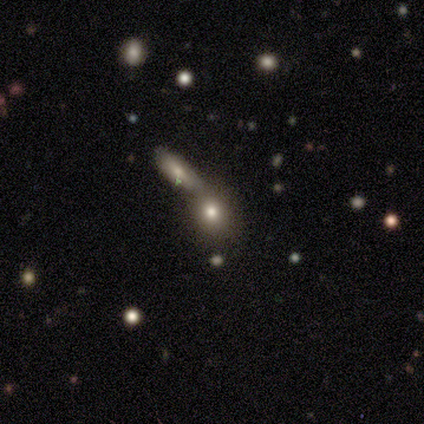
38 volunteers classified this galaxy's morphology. smooth 61%, featured or disk 21%, star or artifact 18%. Down the decision tree: how rounded — round (52%); merging — none (55%).